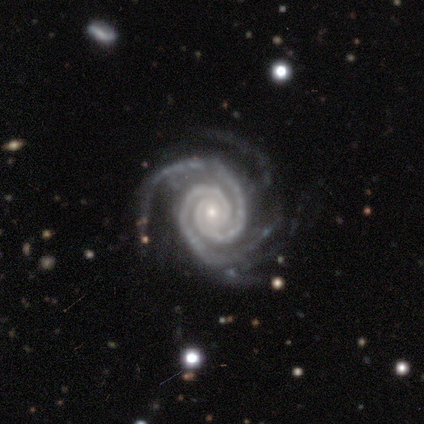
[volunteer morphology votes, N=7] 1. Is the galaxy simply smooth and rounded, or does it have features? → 100% featured or disk, 0% smooth, 0% star or artifact.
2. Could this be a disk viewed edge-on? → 100% no, 0% yes.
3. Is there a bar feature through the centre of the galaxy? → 100% no, 0% strong, 0% weak.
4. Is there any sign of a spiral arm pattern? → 100% yes, 0% no.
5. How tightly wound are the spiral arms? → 100% tight, 0% medium, 0% loose.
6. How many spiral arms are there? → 43% 2, 29% 3, 14% more than 4, 14% can't tell, 0% 1, 0% 4.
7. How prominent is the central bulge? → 71% small, 29% moderate, 0% dominant, 0% large, 0% none.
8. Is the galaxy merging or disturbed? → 71% none, 14% minor disturbance, 14% major disturbance, 0% merger.